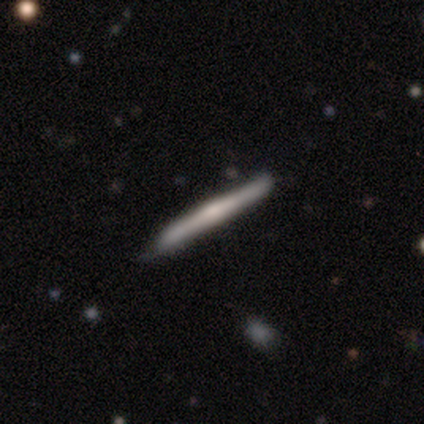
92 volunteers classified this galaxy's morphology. This appears to be a featured or disk galaxy (61%) viewed edge-on (95%) with a rounded central bulge (49%). Merging: none (78%).